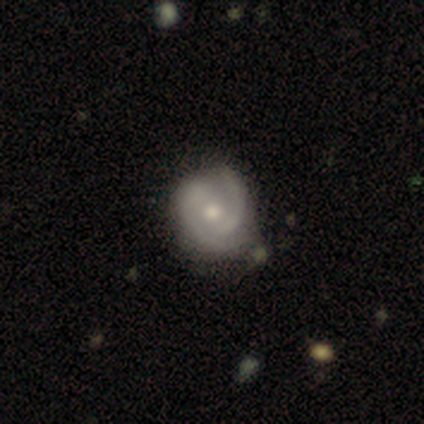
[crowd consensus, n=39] featured or disk 97%, star or artifact 3%, smooth 0%. Down the decision tree: edge-on disk — no (100%); bar — no (61%); spiral arms — yes (92%); spiral arm count — 2 (80%); spiral winding — tight (51%); bulge size — moderate (74%); merging — none (42%).